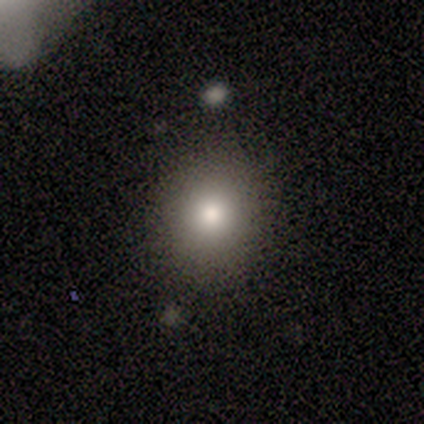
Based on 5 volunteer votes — Smooth or featured? 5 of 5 (100%) said smooth. How rounded? 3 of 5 (60%) said round. Merging? 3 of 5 (60%) said none.